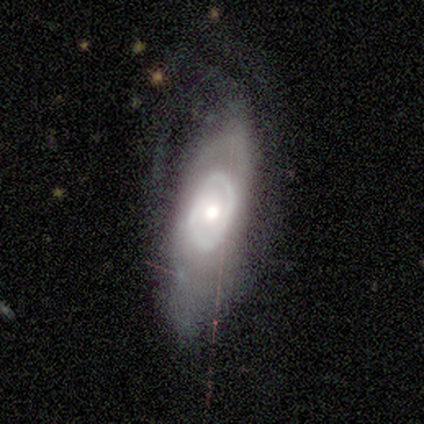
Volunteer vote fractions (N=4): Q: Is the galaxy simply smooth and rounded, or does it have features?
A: featured or disk — 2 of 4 (50%).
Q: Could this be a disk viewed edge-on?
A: no — 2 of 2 (100%).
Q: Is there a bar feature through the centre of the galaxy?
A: no — 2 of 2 (100%).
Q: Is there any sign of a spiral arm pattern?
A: yes — 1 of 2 (50%, tied with no).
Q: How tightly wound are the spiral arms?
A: medium — 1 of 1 (100%).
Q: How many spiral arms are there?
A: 2 — 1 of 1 (100%).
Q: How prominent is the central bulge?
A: moderate — 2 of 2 (100%).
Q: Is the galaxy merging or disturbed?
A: none — 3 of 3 (100%).